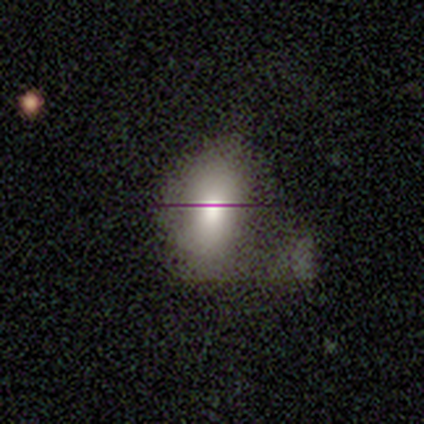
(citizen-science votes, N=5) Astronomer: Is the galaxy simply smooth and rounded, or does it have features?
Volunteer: smooth — 40%, tied with featured or disk at 40%.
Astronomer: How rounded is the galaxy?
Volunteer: in between — 100%.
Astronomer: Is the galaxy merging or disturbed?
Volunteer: none — 50%.